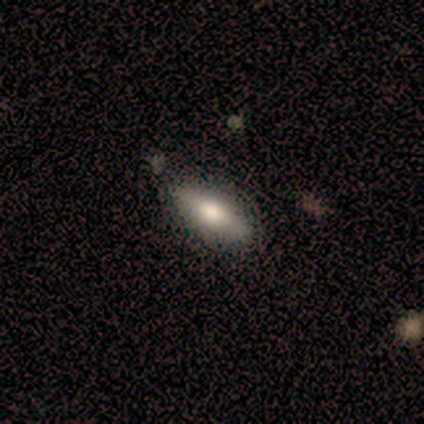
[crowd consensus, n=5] Smooth or featured: smooth — 80% (featured or disk — 20%)
How rounded: in between — 50% (tied with cigar-shaped — 50%)
Merging: none — 60% (minor disturbance — 40%)